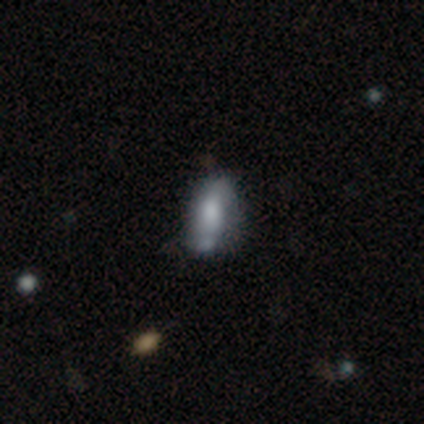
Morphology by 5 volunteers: A smooth galaxy with no disk features (80%) that is in between round and cigar-shaped (75%).

Vote fractions:
- Smooth or featured? smooth: 80% / star or artifact: 20% / featured or disk: 0%
- How rounded? in between: 75% / cigar-shaped: 25% / round: 0%
- Merging? none: 50% (tied) / minor disturbance: 50% (tied) / major disturbance: 0% / merger: 0%